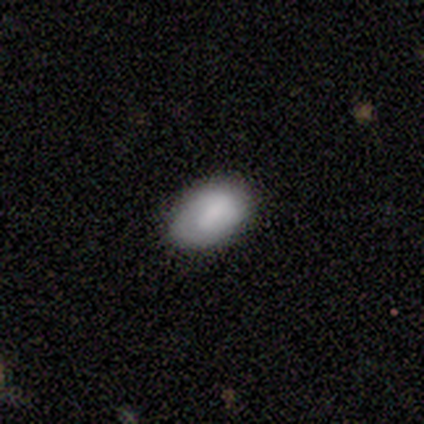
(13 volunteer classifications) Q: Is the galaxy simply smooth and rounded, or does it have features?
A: featured or disk — 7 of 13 (54%).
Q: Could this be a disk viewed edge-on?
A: no — 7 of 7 (100%).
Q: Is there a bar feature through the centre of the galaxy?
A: weak — 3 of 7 (43%, tied with no).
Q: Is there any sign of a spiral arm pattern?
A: yes — 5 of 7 (71%).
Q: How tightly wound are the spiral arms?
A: tight — 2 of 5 (40%, tied with medium).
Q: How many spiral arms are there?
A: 1 — 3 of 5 (60%).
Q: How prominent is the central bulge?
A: none — 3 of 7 (43%).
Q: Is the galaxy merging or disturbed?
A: none — 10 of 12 (83%).